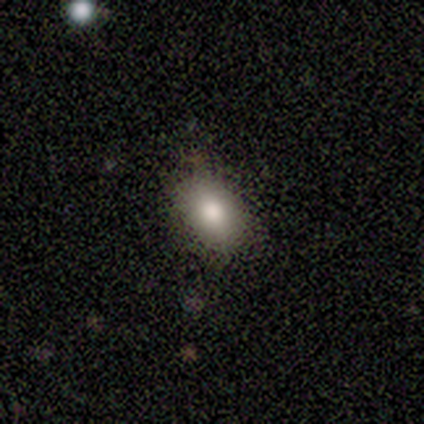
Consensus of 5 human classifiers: Q: Smooth or featured?
A: smooth (60%); runner-up: featured or disk (20%)
Q: How rounded?
A: in between (67%); runner-up: round (33%)
Q: Merging?
A: none (75%); runner-up: minor disturbance (25%)